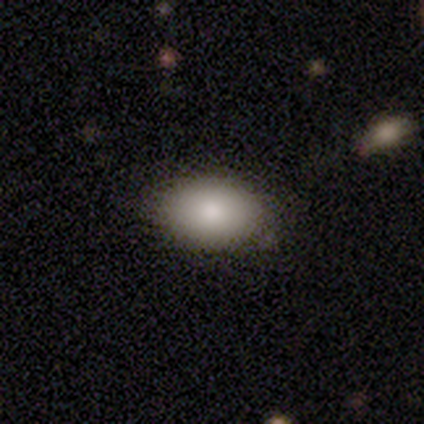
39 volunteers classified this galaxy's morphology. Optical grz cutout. It shows a smooth galaxy with no disk features (92%) that is in between round and cigar-shaped (92%). Merging: none (87%).